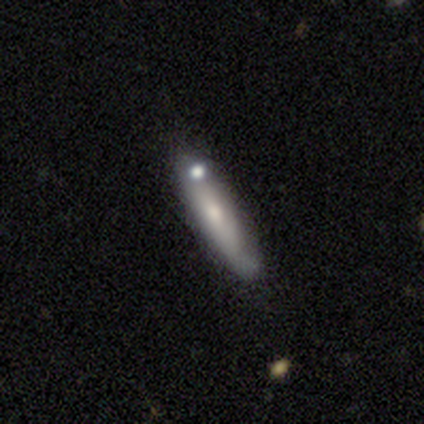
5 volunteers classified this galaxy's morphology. smooth-or-featured: featured or disk: 60% | smooth: 40% | star or artifact: 0%
  disk-edge-on: no: 67% | yes: 33%
    bar: no: 100% | strong: 0% | weak: 0%
    has-spiral-arms: no: 100% | yes: 0%
    bulge-size: moderate: 50% (tied) | small: 50% (tied) | dominant: 0% | large: 0% | none: 0%
  merging: none: 60% | minor disturbance: 20% | merger: 20% | major disturbance: 0%